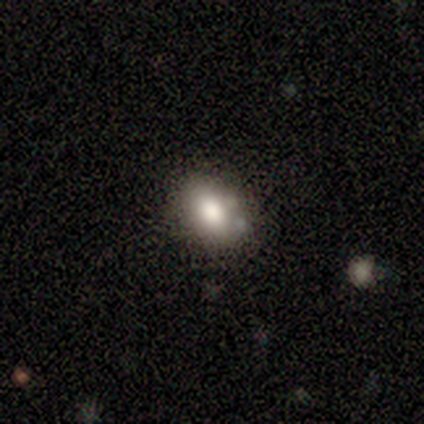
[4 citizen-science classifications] Q: Smooth or featured?
A: smooth (100%)
Q: How rounded?
A: in between (75%); runner-up: round (25%)
Q: Merging?
A: none (75%); runner-up: minor disturbance (25%)